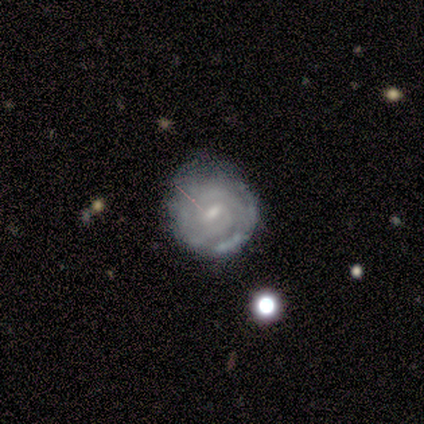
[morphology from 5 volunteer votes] This is clearly a featured or disk galaxy (100%). It is clearly not viewed edge-on (100%). Bar: clearly weak (80%). Spiral arm pattern: clearly yes (80%). Spiral arm count: possibly 3 (50%). Spiral winding: possibly tight (50%, tied with medium). Central bulge: clearly small (100%). Merging: clearly none (80%).